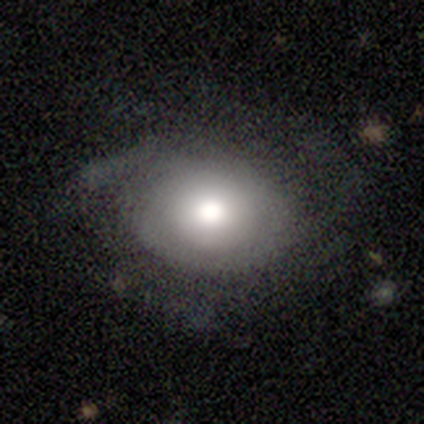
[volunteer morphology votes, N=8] Q: Smooth or featured?
A: featured or disk (88%); runner-up: smooth (12%)
Q: Edge-on disk?
A: no (100%)
Q: Bar?
A: no (100%)
Q: Spiral arms?
A: yes (86%); runner-up: no (14%)
Q: Spiral winding?
A: medium (67%); runner-up: tight (17%)
Q: Spiral arm count?
A: 2 (50%); tied with: can't tell (50%)
Q: Bulge size?
A: large (57%); runner-up: moderate (43%)
Q: Merging?
A: none (62%); runner-up: minor disturbance (25%)